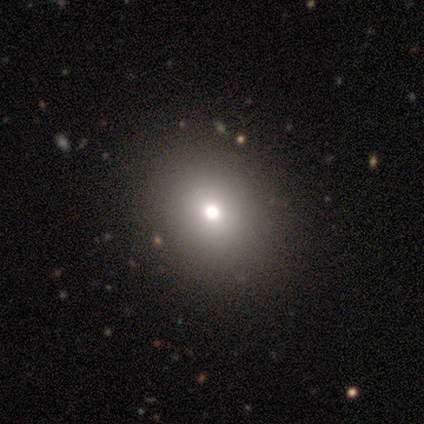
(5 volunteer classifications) Smooth or featured? smooth (100%)
How rounded? in between (80%)
Merging? none (100%)